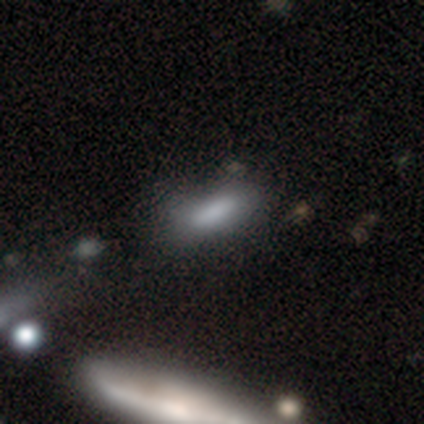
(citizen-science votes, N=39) Smooth or featured: smooth — 74% (star or artifact — 15%)
How rounded: in between — 66% (cigar-shaped — 31%)
Merging: none — 70% (merger — 21%)